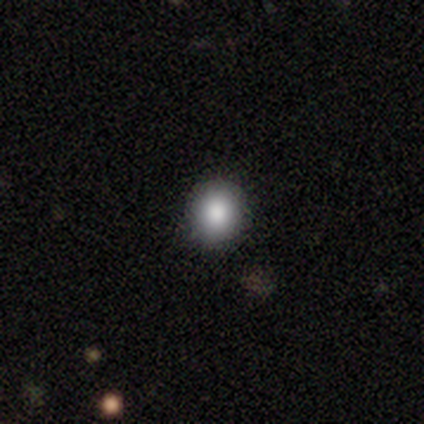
This appears to be a smooth galaxy with no disk features (80%) that is round (88%). Merging: none (100%).